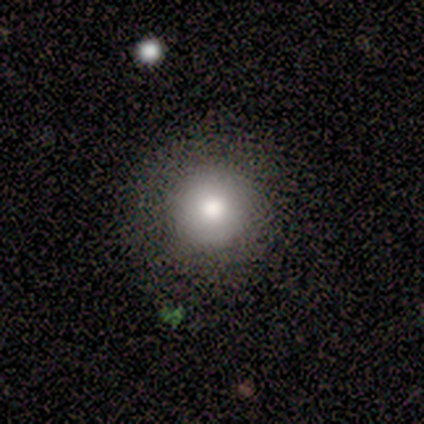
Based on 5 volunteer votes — Smooth or featured? smooth (60%)
How rounded? round (100%)
Merging? none (75%)